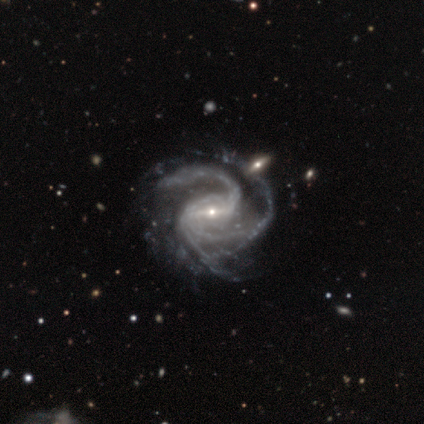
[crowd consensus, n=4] Q: Smooth or featured?
A: featured or disk (75%); runner-up: star or artifact (25%)
Q: Edge-on disk?
A: no (100%)
Q: Bar?
A: weak (100%)
Q: Spiral arms?
A: yes (100%)
Q: Spiral winding?
A: tight (67%); runner-up: medium (33%)
Q: Spiral arm count?
A: 3 (67%); runner-up: 1 (33%)
Q: Bulge size?
A: small (100%)
Q: Merging?
A: none (67%); runner-up: merger (33%)